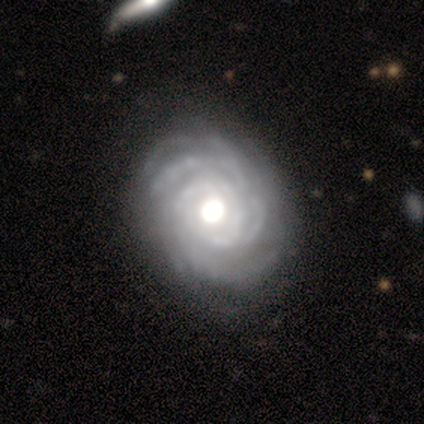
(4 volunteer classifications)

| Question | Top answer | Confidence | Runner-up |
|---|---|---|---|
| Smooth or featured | featured or disk | 75% | smooth (25%) |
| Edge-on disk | no | 100% | — |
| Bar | no | 100% | — |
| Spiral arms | yes | 100% | — |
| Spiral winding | tight | 100% | — |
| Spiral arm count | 2 | 33% | tied: more than 4 (33%), can't tell (33%) |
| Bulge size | dominant | 33% | tied: large (33%), moderate (33%) |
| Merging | none | 25% | tied: minor disturbance (25%), major disturbance (25%), merger (25%) |